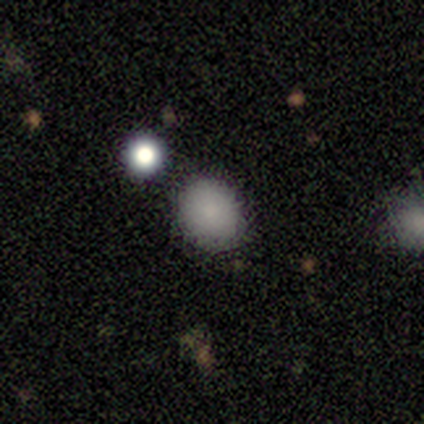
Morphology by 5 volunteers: Overall: smooth (60%; featured or disk 20%). How rounded: round (67%; in between 33%). Merging: none (100%).